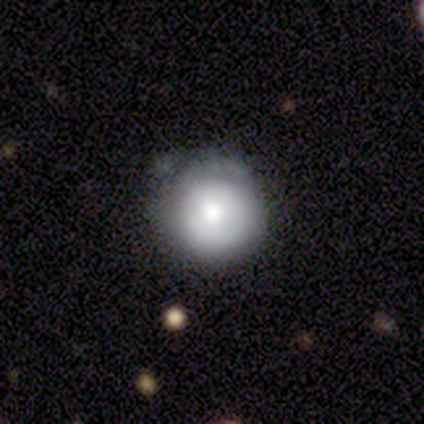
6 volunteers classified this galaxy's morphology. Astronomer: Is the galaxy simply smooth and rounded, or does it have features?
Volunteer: smooth — 83%.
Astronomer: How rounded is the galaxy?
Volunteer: round — 100%.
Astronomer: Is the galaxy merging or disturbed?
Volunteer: none — 83%.